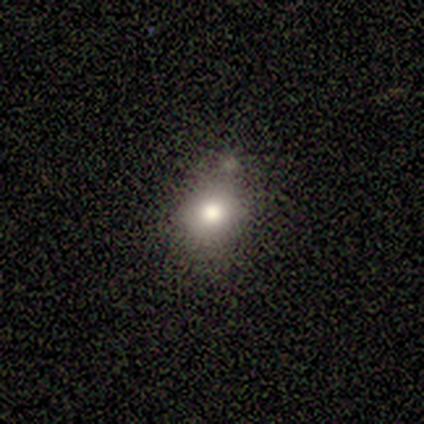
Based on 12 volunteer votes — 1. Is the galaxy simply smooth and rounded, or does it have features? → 75% smooth, 17% featured or disk, 8% star or artifact.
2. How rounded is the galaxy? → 78% round, 22% in between, 0% cigar-shaped.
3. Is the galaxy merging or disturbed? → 73% none, 27% minor disturbance, 0% major disturbance, 0% merger.